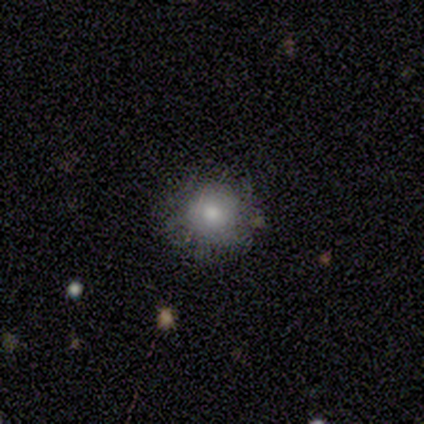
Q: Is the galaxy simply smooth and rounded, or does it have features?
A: smooth — 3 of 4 (75%).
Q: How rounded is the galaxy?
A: round — 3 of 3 (100%).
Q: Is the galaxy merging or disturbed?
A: none — 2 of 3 (67%).